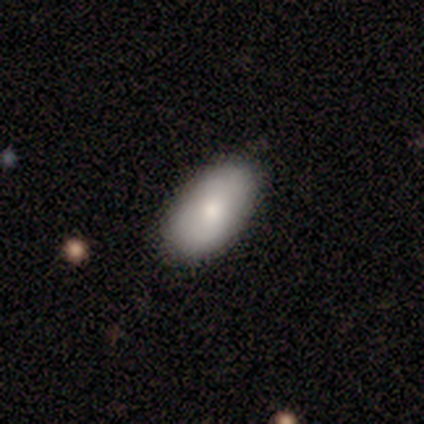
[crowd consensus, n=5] smooth 40% (tied), featured or disk 40% (tied), star or artifact 20%. Down the decision tree: how rounded — in between (100%); merging — none (75%).